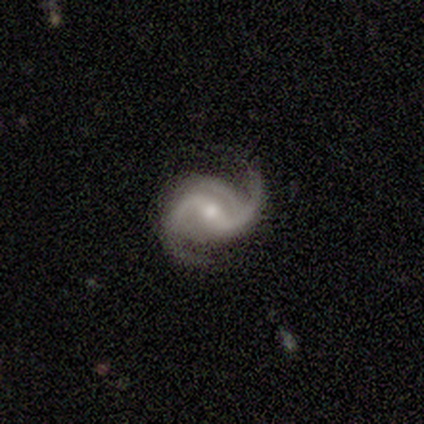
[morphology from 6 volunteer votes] This is clearly a featured or disk galaxy (83%). It is clearly not viewed edge-on (100%). Bar: likely weak (60%). Spiral arm pattern: clearly yes (100%). Spiral arm count: likely 2 (60%). Spiral winding: marginally tight (40%, tied with medium). Central bulge: clearly moderate (100%). Merging: likely none (60%).